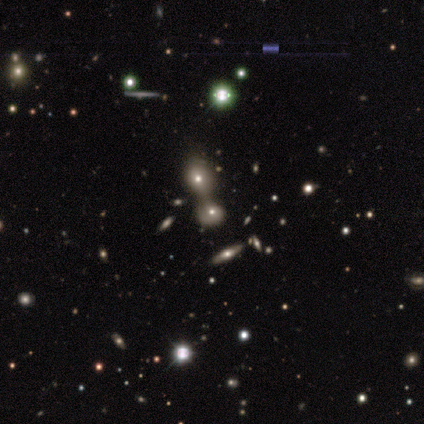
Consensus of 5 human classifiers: Overall: smooth (40%, tied with star or artifact). How rounded: round (100%). Merging: merger (100%).